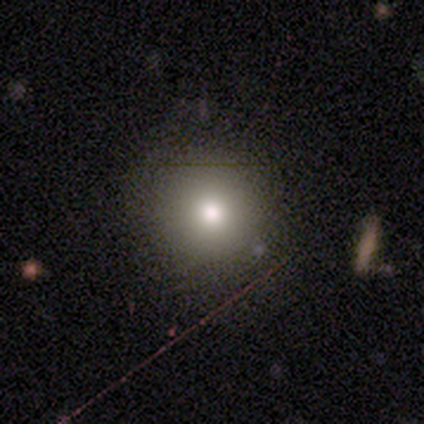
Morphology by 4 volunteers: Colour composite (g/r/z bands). It shows a star or artifact, not a galaxy (50%).